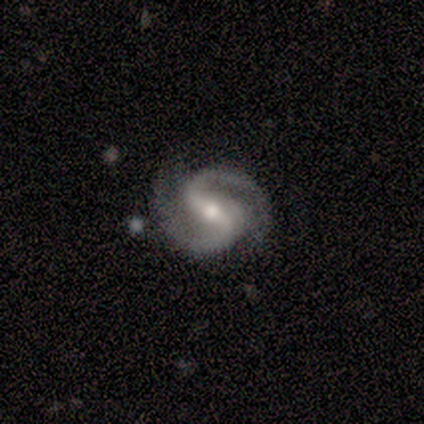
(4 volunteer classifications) smooth-or-featured: featured or disk: 100% | smooth: 0% | star or artifact: 0%
  disk-edge-on: no: 100% | yes: 0%
    bar: strong: 75% | weak: 25% | no: 0%
    has-spiral-arms: yes: 100% | no: 0%
      spiral-winding: medium: 75% | tight: 25% | loose: 0%
      spiral-arm-count: 2: 100% | 1: 0% | 3: 0% | 4: 0% | more than 4: 0% | can't tell: 0%
    bulge-size: moderate: 75% | small: 25% | dominant: 0% | large: 0% | none: 0%
  merging: none: 100% | minor disturbance: 0% | major disturbance: 0% | merger: 0%